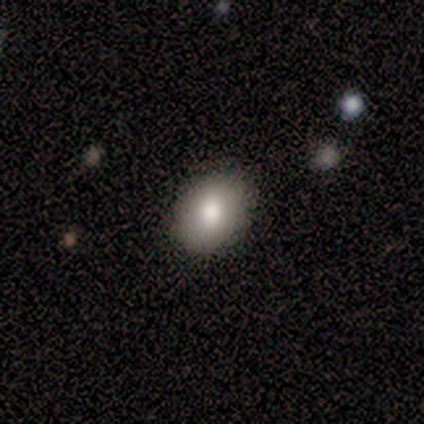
smooth-or-featured: smooth: 89% | star or artifact: 11% | featured or disk: 0%
  how-rounded: in between: 75% | round: 25% | cigar-shaped: 0%
  merging: none: 75% | minor disturbance: 12% | major disturbance: 12% | merger: 0%